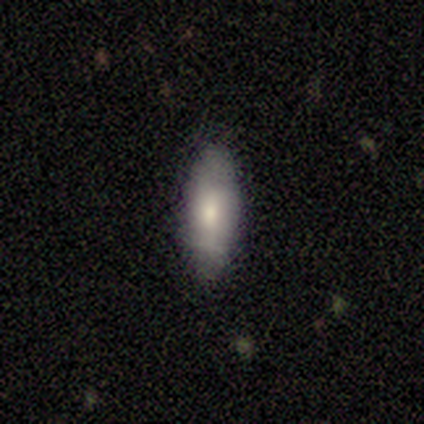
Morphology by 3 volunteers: smooth_or_featured: featured or disk (p=0.67) [alt: smooth p=0.33]
disk_edge_on: no (p=1.00)
bar: no (p=1.00)
has_spiral_arms: yes (p=0.50) [tied with: no p=0.50]
spiral_winding: tight (p=1.00)
spiral_arm_count: 2 (p=1.00)
bulge_size: moderate (p=1.00)
merging: none (p=1.00)